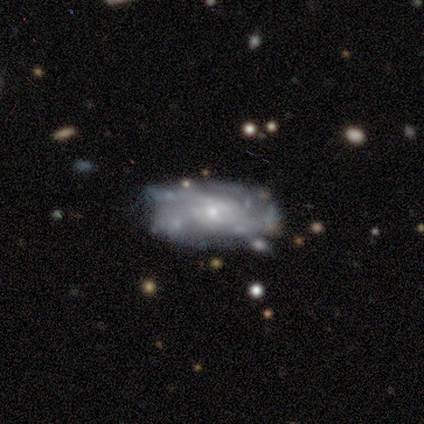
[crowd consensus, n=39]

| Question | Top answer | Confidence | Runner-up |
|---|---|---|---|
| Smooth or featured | featured or disk | 77% | smooth (15%) |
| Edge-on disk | no | 97% | yes (3%) |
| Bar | no | 83% | weak (17%) |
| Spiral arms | yes | 76% | no (24%) |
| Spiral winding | medium | 45% | tight (41%) |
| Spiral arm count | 4 | 32% | can't tell (27%) |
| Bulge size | small | 79% | moderate (17%) |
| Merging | none | 58% | minor disturbance (22%) |